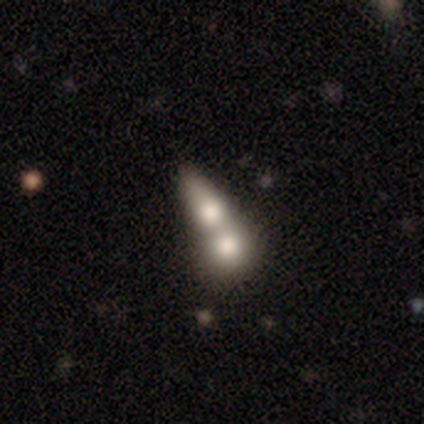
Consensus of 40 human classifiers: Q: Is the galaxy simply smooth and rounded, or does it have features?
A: smooth — 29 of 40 (72%).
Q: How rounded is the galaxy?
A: in between — 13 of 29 (45%).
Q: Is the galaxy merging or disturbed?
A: merger — 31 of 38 (82%).